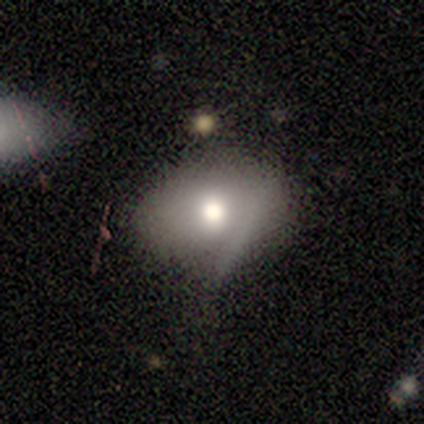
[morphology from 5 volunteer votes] Smooth or featured: smooth — 80% (featured or disk — 20%)
How rounded: in between — 100%
Merging: minor disturbance — 60% (none — 40%)